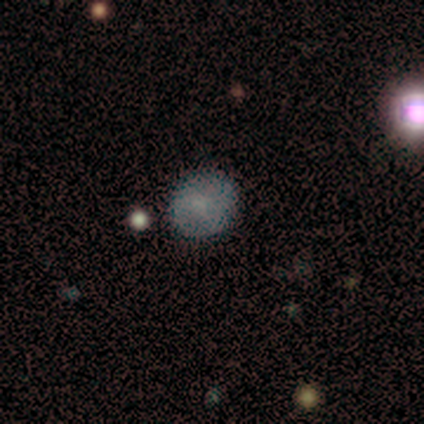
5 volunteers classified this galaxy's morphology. smooth-or-featured: smooth: 80% | star or artifact: 20% | featured or disk: 0%
  how-rounded: round: 100% | in between: 0% | cigar-shaped: 0%
  merging: none: 100% | minor disturbance: 0% | major disturbance: 0% | merger: 0%